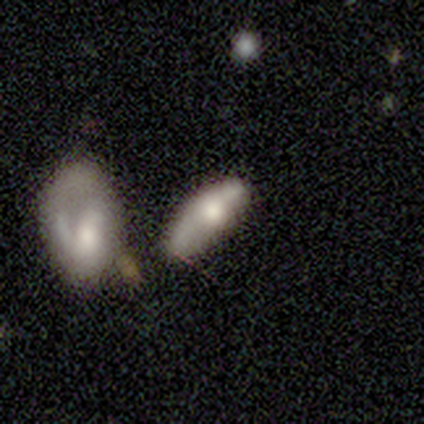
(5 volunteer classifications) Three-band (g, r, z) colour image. It shows a featured or disk galaxy (60%) viewed edge-on (100%) with a rounded central bulge (100%). Merging: minor disturbance (50%).